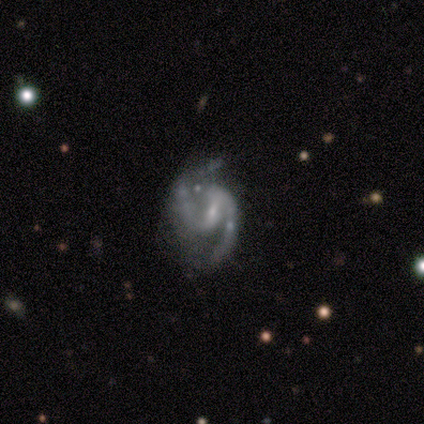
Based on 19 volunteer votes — Smooth or featured? featured or disk (89%)
Edge-on disk? no (100%)
Bar? weak (71%)
Spiral arms? yes (100%)
Spiral winding? medium (53%)
Spiral arm count? 2 (88%)
Bulge size? small (71%)
Merging? none (47%)